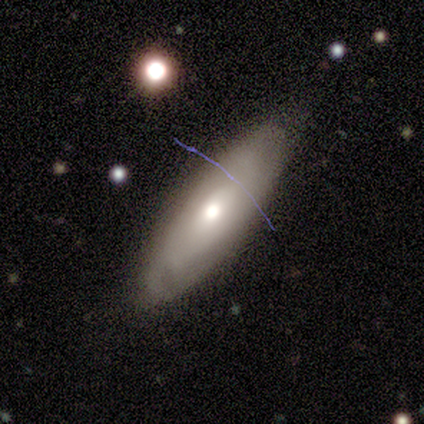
Q: Smooth or featured?
A: smooth (62%); runner-up: featured or disk (38%)
Q: How rounded?
A: in between (54%); runner-up: cigar-shaped (42%)
Q: Merging?
A: none (82%); runner-up: minor disturbance (15%)